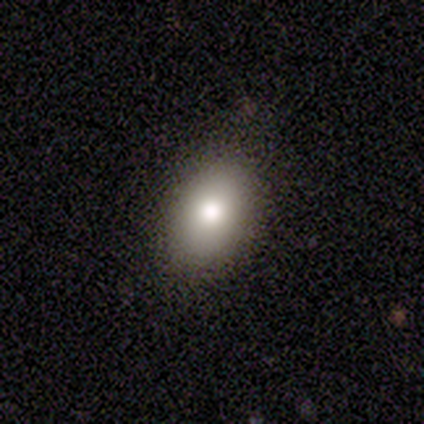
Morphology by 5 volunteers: A smooth galaxy with no disk features (60%) that is in between round and cigar-shaped (100%). Merging: none (80%).